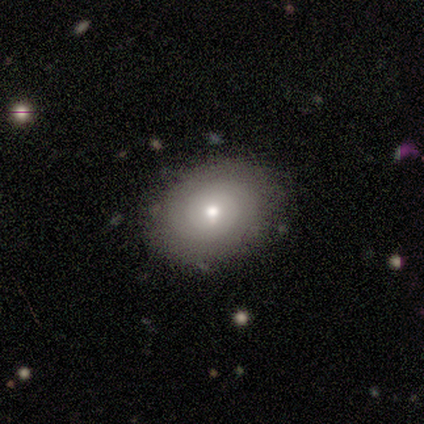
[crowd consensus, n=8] A smooth galaxy with no disk features (62%) that is in between round and cigar-shaped (60%).

Vote fractions:
- Smooth or featured? smooth: 62% / featured or disk: 38% / star or artifact: 0%
- How rounded? in between: 60% / round: 40% / cigar-shaped: 0%
- Merging? none: 88% / minor disturbance: 12% / major disturbance: 0% / merger: 0%